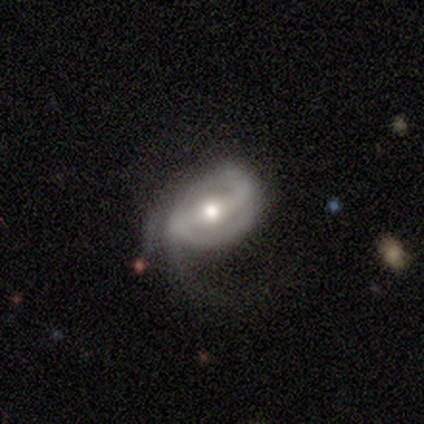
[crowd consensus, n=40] smooth_or_featured: featured or disk (p=0.88) [alt: smooth p=0.12]
disk_edge_on: no (p=0.94) [alt: yes p=0.06]
bar: weak (p=0.61) [alt: strong p=0.30]
has_spiral_arms: yes (p=0.91) [alt: no p=0.09]
spiral_winding: medium (p=0.53) [alt: tight p=0.27]
spiral_arm_count: 2 (p=0.60) [alt: 1 p=0.17]
bulge_size: moderate (p=0.79) [alt: small p=0.18]
merging: none (p=0.40) [alt: major disturbance p=0.38]